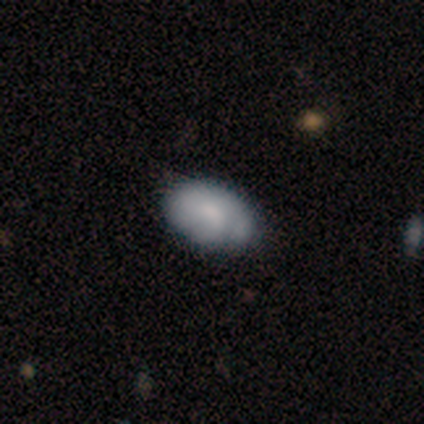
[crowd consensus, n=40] Smooth or featured? smooth (62%)
How rounded? in between (96%)
Merging? none (47%)